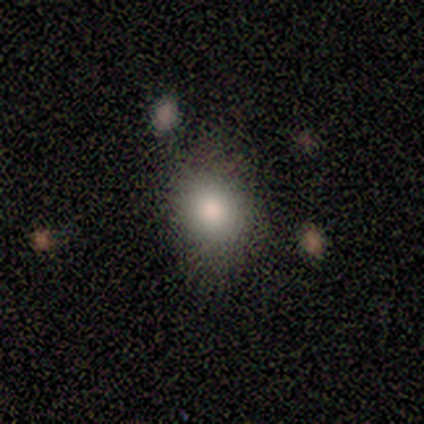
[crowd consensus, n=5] Smooth or featured? 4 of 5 (80%) said smooth. How rounded? 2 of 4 (50%, tied with in between) said round. Merging? 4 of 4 (100%) said none.